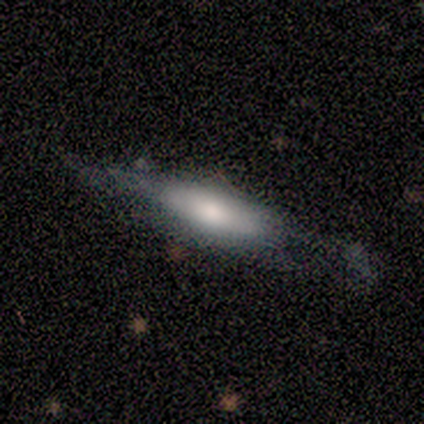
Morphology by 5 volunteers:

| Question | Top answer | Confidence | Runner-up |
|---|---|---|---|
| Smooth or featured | featured or disk | 80% | smooth (20%) |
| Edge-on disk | yes | 75% | no (25%) |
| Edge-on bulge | rounded | 100% | — |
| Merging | none | 60% | minor disturbance (40%) |